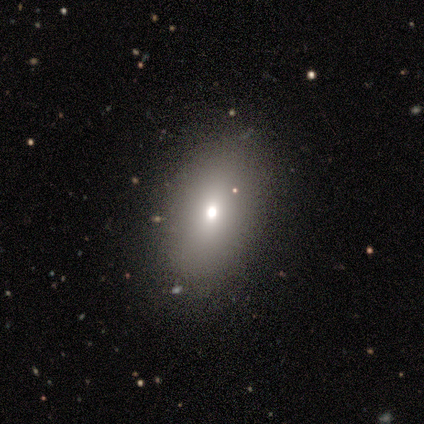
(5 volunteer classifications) Overall: smooth (80%). How rounded: in between (75%). Merging: none (100%).